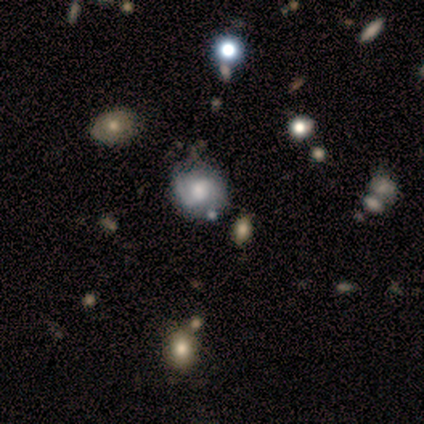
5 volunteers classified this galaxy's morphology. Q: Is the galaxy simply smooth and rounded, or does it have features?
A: featured or disk — 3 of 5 (60%).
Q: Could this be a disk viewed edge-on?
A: no — 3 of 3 (100%).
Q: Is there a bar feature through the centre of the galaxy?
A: strong — 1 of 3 (33%, tied with weak and no).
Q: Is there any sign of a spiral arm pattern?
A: yes — 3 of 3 (100%).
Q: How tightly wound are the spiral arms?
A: loose — 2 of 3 (67%).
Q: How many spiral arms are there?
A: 2 — 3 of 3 (100%).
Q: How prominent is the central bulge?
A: large — 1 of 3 (33%, tied with moderate and none).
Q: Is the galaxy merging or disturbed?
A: none — 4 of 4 (100%).